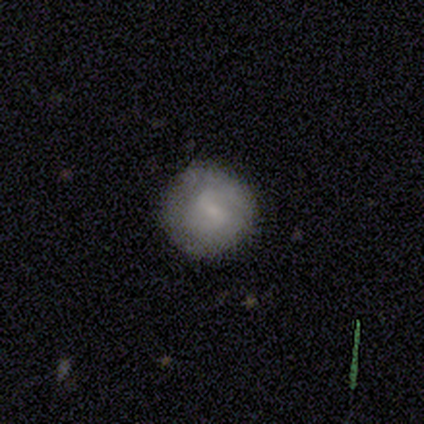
Smooth or featured: smooth — 60% (featured or disk — 40%)
How rounded: round — 100%
Merging: none — 60% (minor disturbance — 40%)